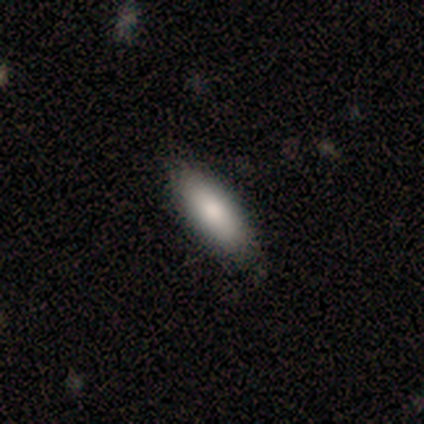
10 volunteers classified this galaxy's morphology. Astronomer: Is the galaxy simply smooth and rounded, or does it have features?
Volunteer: smooth — 80%.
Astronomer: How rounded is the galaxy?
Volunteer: in between — 75%.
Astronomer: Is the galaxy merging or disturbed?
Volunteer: none — 100%.